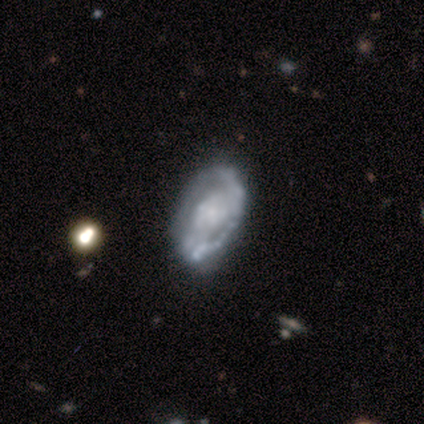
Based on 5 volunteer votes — smooth-or-featured: featured or disk: 60% | smooth: 40% | star or artifact: 0%
  disk-edge-on: no: 100% | yes: 0%
    bar: no: 67% | weak: 33% | strong: 0%
    has-spiral-arms: yes: 100% | no: 0%
      spiral-winding: loose: 67% | tight: 33% | medium: 0%
      spiral-arm-count: 1: 33% (tied) | 2: 33% (tied) | can't tell: 33% (tied) | 3: 0% | 4: 0% | more than 4: 0%
    bulge-size: small: 67% | large: 33% | dominant: 0% | moderate: 0% | none: 0%
  merging: none: 40% (tied) | minor disturbance: 40% (tied) | major disturbance: 20% | merger: 0%